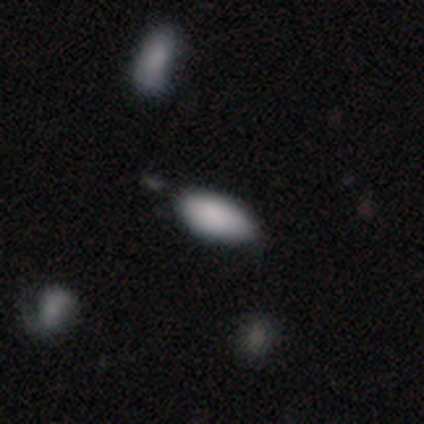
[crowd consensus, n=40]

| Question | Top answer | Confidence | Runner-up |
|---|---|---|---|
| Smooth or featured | smooth | 90% | featured or disk (8%) |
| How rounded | in between | 86% | cigar-shaped (11%) |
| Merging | none | 56% | minor disturbance (28%) |